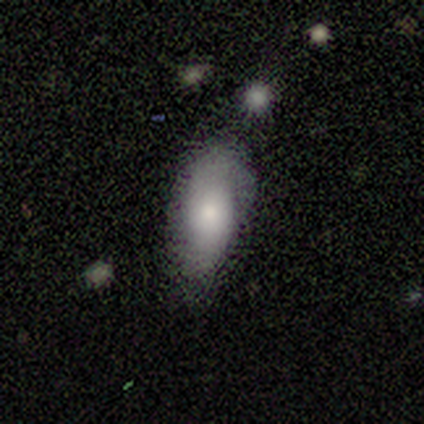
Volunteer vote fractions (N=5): A smooth galaxy with no disk features (60%) that is in between round and cigar-shaped (100%). Merging: none (80%).